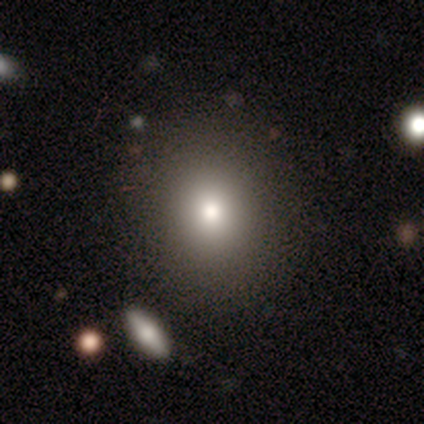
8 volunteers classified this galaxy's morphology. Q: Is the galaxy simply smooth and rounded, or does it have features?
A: smooth — 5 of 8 (62%).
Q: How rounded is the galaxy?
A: round — 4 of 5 (80%).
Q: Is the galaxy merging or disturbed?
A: none — 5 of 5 (100%).